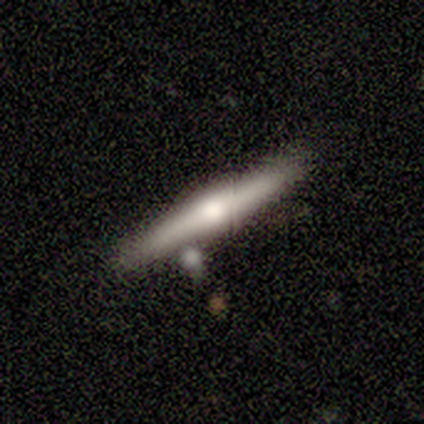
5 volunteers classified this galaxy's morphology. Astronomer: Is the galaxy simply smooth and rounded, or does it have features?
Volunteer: featured or disk — 60% (runner-up: smooth, 40%).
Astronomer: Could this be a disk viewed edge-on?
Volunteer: yes — 100%.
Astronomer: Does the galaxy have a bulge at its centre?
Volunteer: rounded — 100%.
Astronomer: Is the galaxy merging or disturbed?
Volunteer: none — 40%, tied with minor disturbance at 40%.